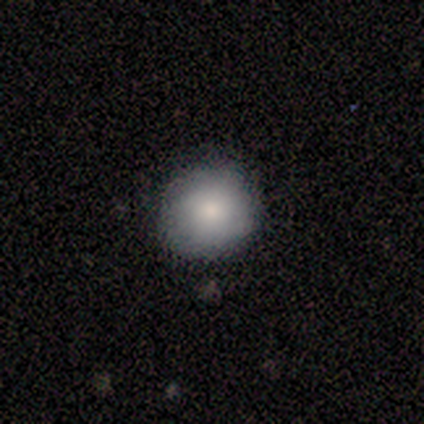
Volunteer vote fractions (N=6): A smooth galaxy with no disk features (100%) that is round (100%).

Vote fractions:
- Smooth or featured? smooth: 100% / featured or disk: 0% / star or artifact: 0%
- How rounded? round: 100% / in between: 0% / cigar-shaped: 0%
- Merging? none: 83% / minor disturbance: 17% / major disturbance: 0% / merger: 0%